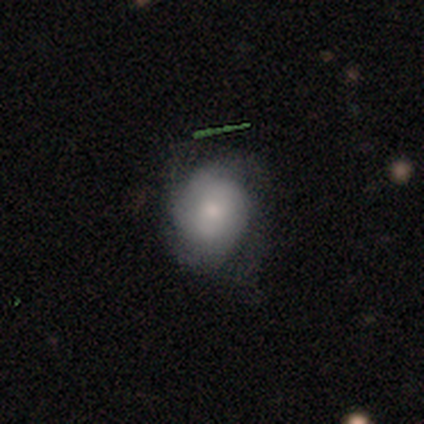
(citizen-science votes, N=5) Morphology: type=featured or disk (80%); edge-on=no (100%); bar=no (75%); spiral arms=yes (75%); winding=tight (67%); arm count=2 (33%, tied with 3 and can't tell); bulge=moderate (75%); merging=none (40%, tied with major disturbance).